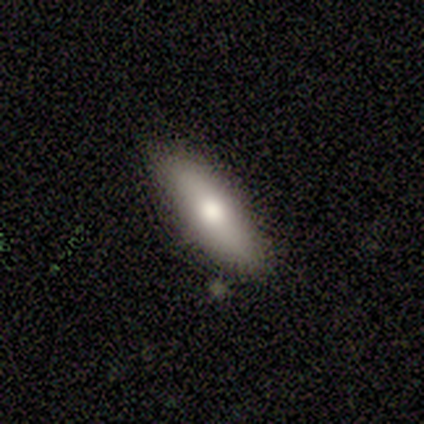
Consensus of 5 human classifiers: This is clearly a smooth galaxy (80%). How rounded: possibly in between (50%, tied with cigar-shaped). Merging: clearly none (80%).